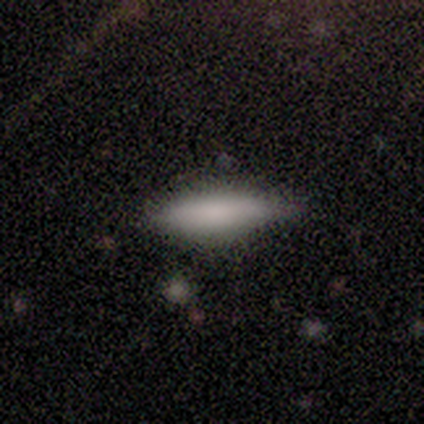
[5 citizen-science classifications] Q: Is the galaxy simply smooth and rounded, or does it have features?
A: smooth — 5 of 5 (100%).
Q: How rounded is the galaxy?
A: cigar-shaped — 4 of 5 (80%).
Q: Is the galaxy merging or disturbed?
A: none — 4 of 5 (80%).